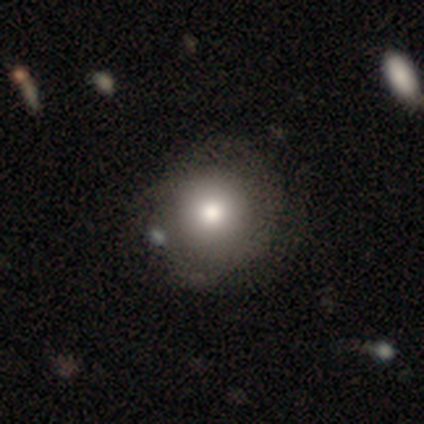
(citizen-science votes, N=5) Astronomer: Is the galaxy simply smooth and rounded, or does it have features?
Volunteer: smooth — 80%.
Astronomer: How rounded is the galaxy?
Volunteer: round — 100%.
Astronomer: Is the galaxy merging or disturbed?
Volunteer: minor disturbance — 60%.